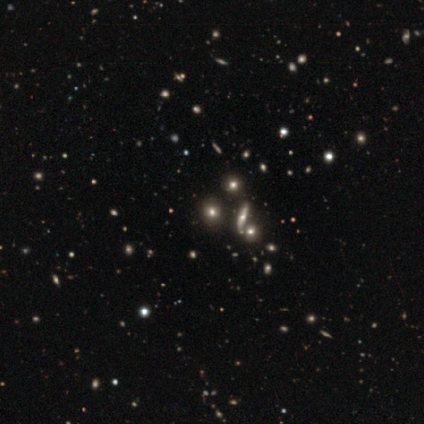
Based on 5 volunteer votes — Overall: star or artifact (80%).